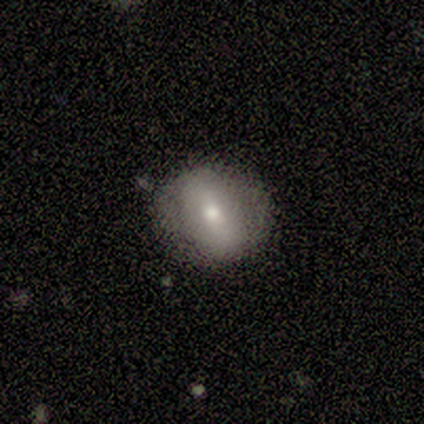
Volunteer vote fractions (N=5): Smooth or featured: smooth — 60% (featured or disk — 40%)
How rounded: in between — 67% (round — 33%)
Merging: none — 60% (major disturbance — 40%)